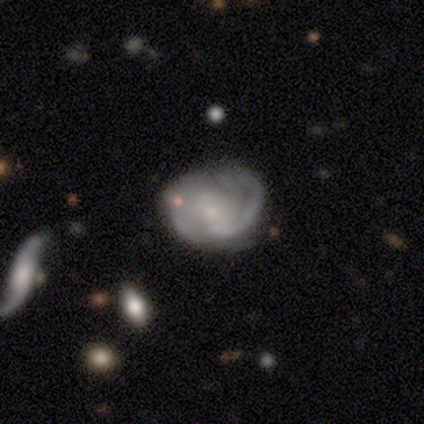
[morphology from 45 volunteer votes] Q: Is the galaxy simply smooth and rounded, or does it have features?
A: featured or disk — 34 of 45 (76%).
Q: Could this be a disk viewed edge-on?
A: no — 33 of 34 (97%).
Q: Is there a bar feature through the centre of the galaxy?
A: no — 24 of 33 (73%).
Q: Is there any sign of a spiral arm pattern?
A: yes — 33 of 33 (100%).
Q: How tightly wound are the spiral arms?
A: tight — 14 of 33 (42%, tied with medium).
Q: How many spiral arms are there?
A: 2 — 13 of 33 (39%).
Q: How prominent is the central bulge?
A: small — 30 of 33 (91%).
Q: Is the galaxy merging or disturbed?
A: none — 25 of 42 (60%).